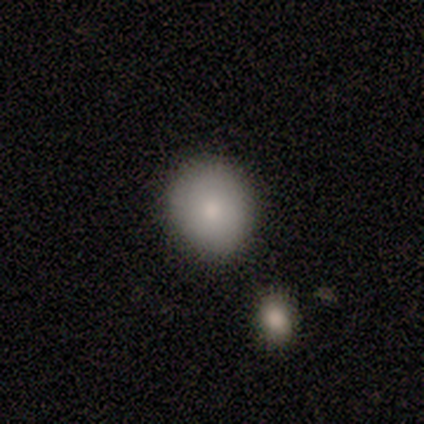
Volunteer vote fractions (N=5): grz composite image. It shows a smooth galaxy with no disk features (80%) that is round (75%). Merging: none (100%).